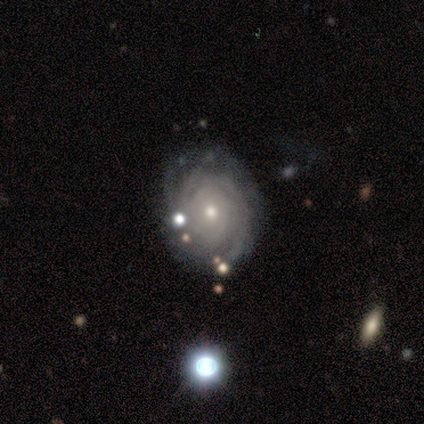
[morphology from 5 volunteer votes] type=featured or disk (100%); edge-on=no (100%); bar=no (80%); spiral arms=yes (80%); winding=tight (75%); arm count=more than 4 (50%, tied with can't tell); bulge=moderate (60%); merging=minor disturbance (60%).